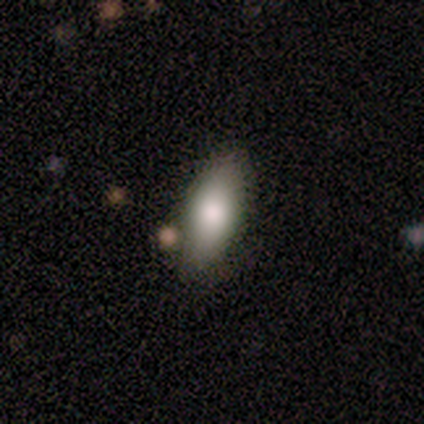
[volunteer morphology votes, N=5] A smooth galaxy with no disk features (40%, tied with star or artifact) that is in between round and cigar-shaped (100%). Merging: none (67%).